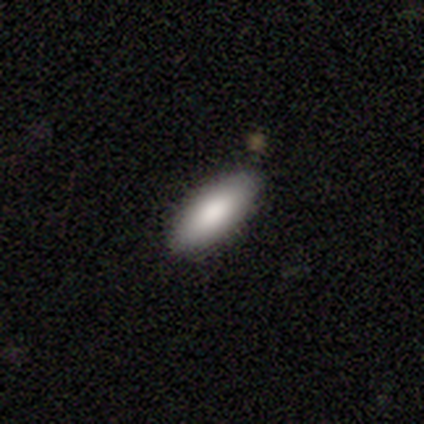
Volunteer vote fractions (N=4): Smooth or featured? smooth (75%)
How rounded? in between (100%)
Merging? none (50%, tied with minor disturbance)